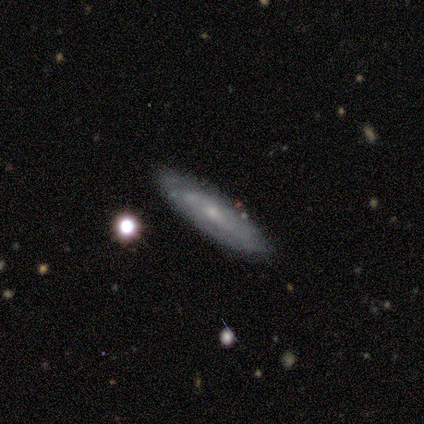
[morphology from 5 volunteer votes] A featured or disk galaxy (60%) with no bar (100%), medium (100%) spiral arms (50%, tied with no) and a small central bulge (100%). Merging: none (80%).